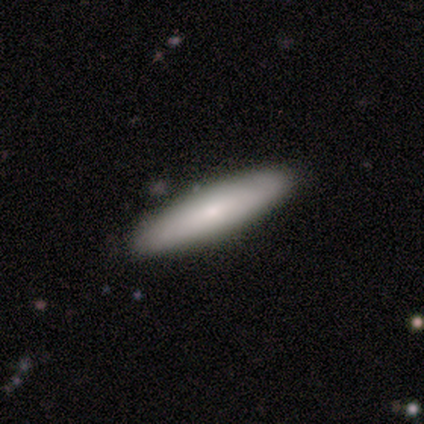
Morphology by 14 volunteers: Q: Smooth or featured?
A: smooth (43%); tied with: featured or disk (43%)
Q: How rounded?
A: in between (50%); tied with: cigar-shaped (50%)
Q: Merging?
A: none (92%); runner-up: minor disturbance (8%)